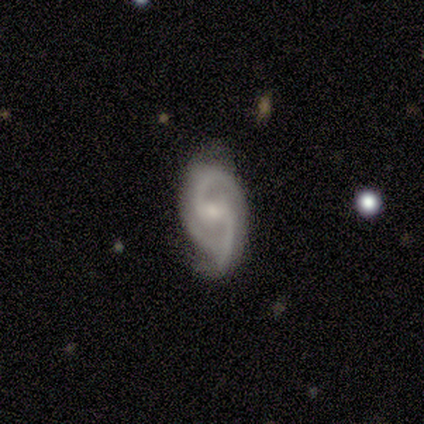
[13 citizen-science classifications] smooth_or_featured: featured or disk (p=1.00)
disk_edge_on: no (p=1.00)
bar: weak (p=0.77) [alt: no p=0.15]
has_spiral_arms: yes (p=0.92) [alt: no p=0.08]
spiral_winding: medium (p=0.67) [alt: loose p=0.25]
spiral_arm_count: 2 (p=0.83) [alt: can't tell p=0.17]
bulge_size: small (p=0.77) [alt: dominant p=0.08]
merging: none (p=0.62) [alt: minor disturbance p=0.31]